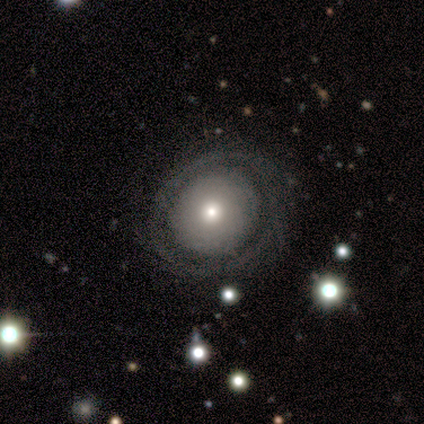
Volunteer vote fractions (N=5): A featured or disk galaxy (40%, tied with star or artifact) with no bar (100%), tight (100%) spiral arms (50%, tied with no) and a moderate central bulge (100%). Merging: none (100%).